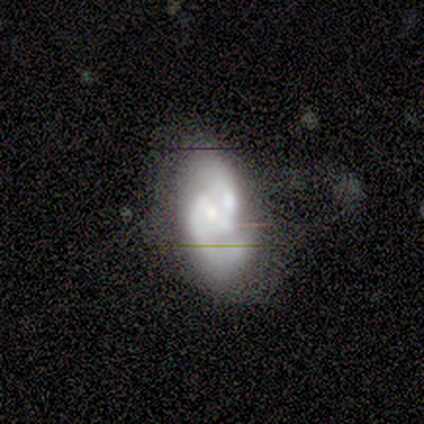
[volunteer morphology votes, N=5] This appears to be a smooth galaxy with no disk features (40%, tied with featured or disk) that is in between round and cigar-shaped (100%). Merging: none (75%).